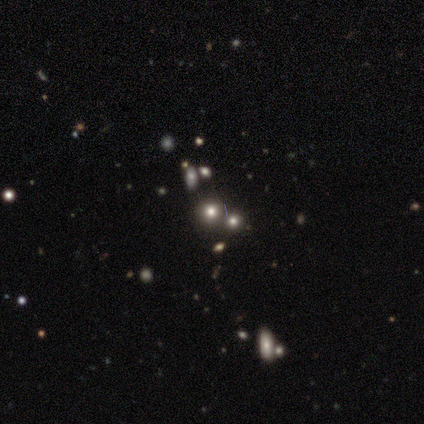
This is possibly a smooth galaxy (55%). How rounded: clearly round (95%). Merging: likely none (71%).